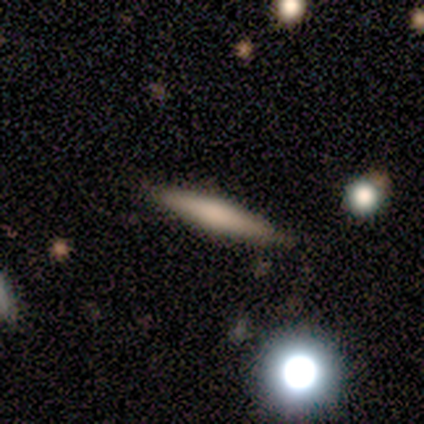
smooth 67%, featured or disk 33%, star or artifact 0%. Down the decision tree: how rounded — cigar-shaped (100%); merging — none (67%).